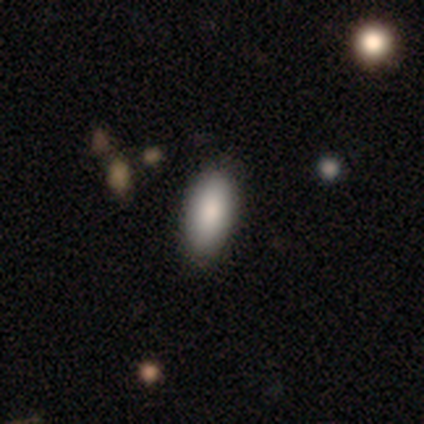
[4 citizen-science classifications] A smooth galaxy with no disk features (100%) that is in between round and cigar-shaped (75%).

Vote fractions:
- Smooth or featured? smooth: 100% / featured or disk: 0% / star or artifact: 0%
- How rounded? in between: 75% / cigar-shaped: 25% / round: 0%
- Merging? none: 100% / minor disturbance: 0% / major disturbance: 0% / merger: 0%